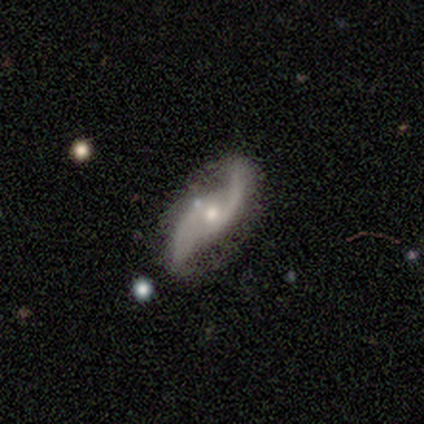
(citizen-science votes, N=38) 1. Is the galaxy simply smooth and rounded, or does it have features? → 84% featured or disk, 11% smooth, 5% star or artifact.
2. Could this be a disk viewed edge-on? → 97% no, 3% yes.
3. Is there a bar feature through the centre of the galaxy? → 68% no, 29% weak, 3% strong.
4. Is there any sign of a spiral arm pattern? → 100% yes, 0% no.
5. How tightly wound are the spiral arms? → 77% loose, 19% medium, 3% tight.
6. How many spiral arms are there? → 94% 2, 6% can't tell, 0% 1, 0% 3, 0% 4, 0% more than 4.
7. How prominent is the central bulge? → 55% moderate, 42% small, 3% none, 0% dominant, 0% large.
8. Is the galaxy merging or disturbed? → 33% none, 14% merger, 8% minor disturbance, 8% major disturbance.